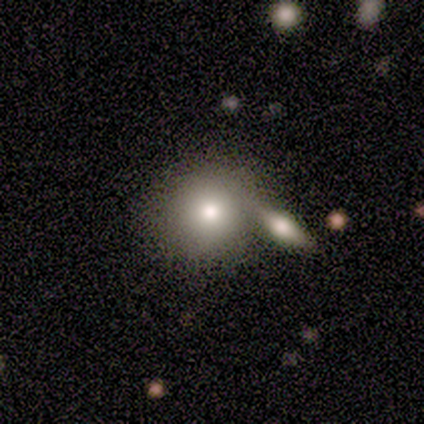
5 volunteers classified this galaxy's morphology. A smooth galaxy with no disk features (60%) that is round (100%).

Vote fractions:
- Smooth or featured? smooth: 60% / featured or disk: 20% / star or artifact: 20%
- How rounded? round: 100% / in between: 0% / cigar-shaped: 0%
- Merging? none: 50% / minor disturbance: 25% / merger: 25% / major disturbance: 0%